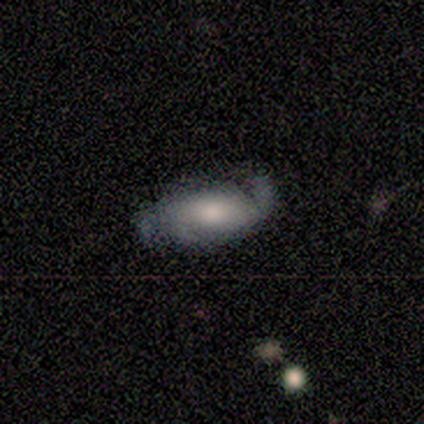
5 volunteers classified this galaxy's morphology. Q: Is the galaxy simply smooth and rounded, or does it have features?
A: featured or disk — 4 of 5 (80%).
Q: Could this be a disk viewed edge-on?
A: no — 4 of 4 (100%).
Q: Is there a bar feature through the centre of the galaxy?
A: weak — 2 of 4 (50%, tied with no).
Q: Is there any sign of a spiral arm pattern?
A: yes — 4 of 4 (100%).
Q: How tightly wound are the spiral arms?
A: loose — 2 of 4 (50%).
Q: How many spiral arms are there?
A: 2 — 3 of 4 (75%).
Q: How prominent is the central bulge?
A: small — 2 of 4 (50%).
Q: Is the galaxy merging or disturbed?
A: none — 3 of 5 (60%).